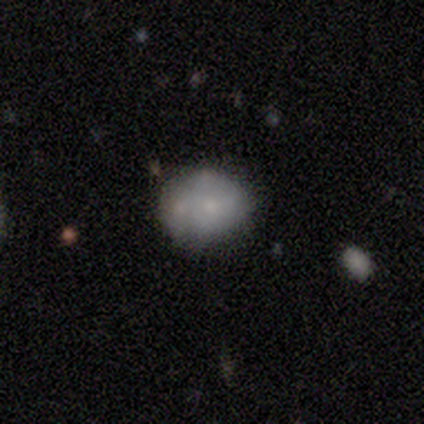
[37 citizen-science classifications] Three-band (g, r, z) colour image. It shows a smooth galaxy with no disk features (54%) that is round (65%). Merging: none (53%).